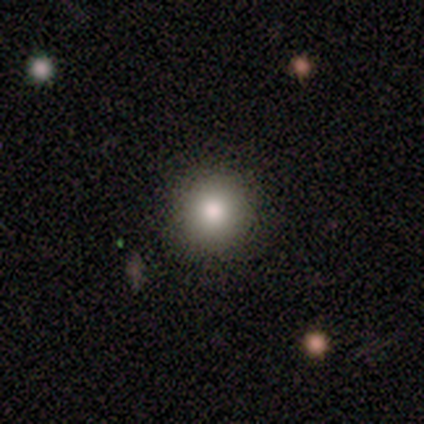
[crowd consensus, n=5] Smooth or featured? 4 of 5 (80%) said smooth. How rounded? 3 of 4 (75%) said round. Merging? 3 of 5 (60%) said none.